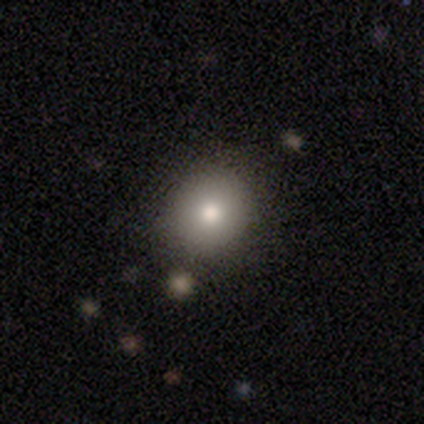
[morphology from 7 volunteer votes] smooth-or-featured: smooth: 86% | star or artifact: 14% | featured or disk: 0%
  how-rounded: round: 50% (tied) | in between: 50% (tied) | cigar-shaped: 0%
  merging: none: 67% | minor disturbance: 33% | major disturbance: 0% | merger: 0%